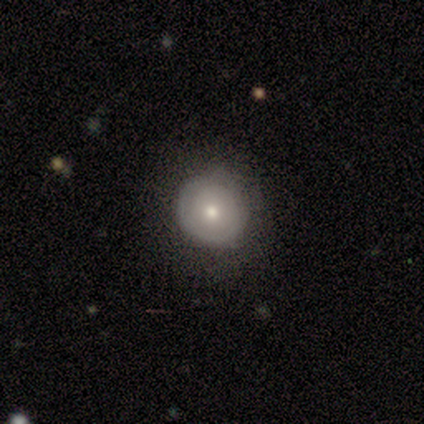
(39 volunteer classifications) smooth 67%, featured or disk 28%, star or artifact 5%. Down the decision tree: how rounded — round (96%); merging — none (70%).